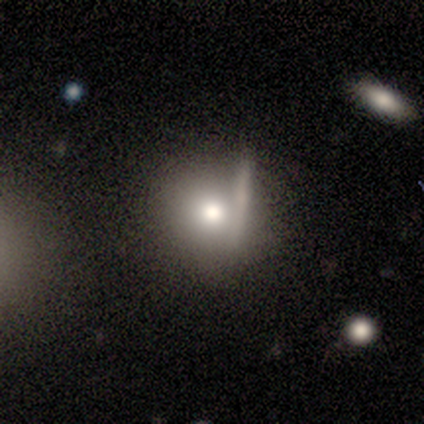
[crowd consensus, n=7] Q: Smooth or featured?
A: smooth (57%); runner-up: featured or disk (43%)
Q: How rounded?
A: round (100%)
Q: Merging?
A: none (57%); runner-up: merger (29%)